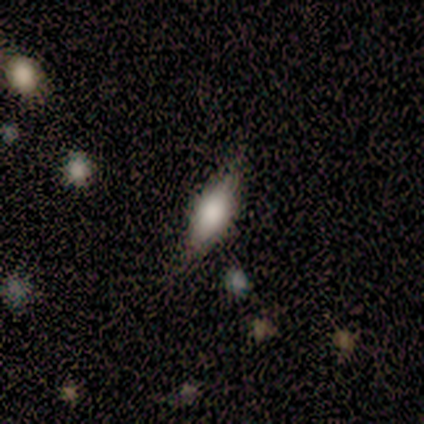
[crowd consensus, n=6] Smooth or featured?
  - smooth: 83% *
  - star or artifact: 17%
  - featured or disk: 0%
How rounded?
  - in between: 100% *
  - round: 0%
  - cigar-shaped: 0%
Merging?
  - none: 100% *
  - minor disturbance: 0%
  - major disturbance: 0%
  - merger: 0%